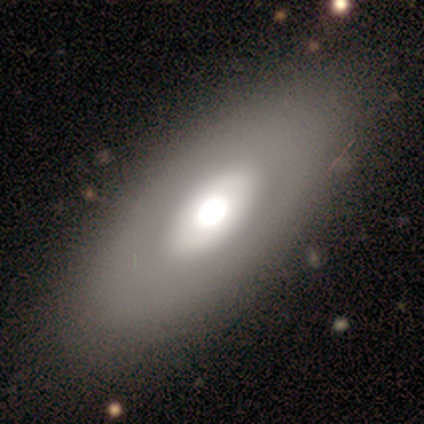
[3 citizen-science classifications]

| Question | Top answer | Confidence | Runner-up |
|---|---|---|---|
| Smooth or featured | smooth | 67% | featured or disk (33%) |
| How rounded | in between | 50% | tied: cigar-shaped (50%) |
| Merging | none | 67% | minor disturbance (33%) |